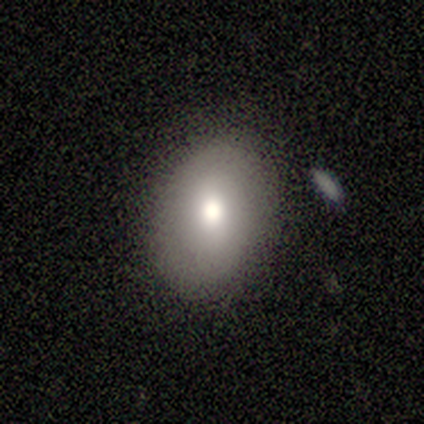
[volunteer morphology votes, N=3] Q: Smooth or featured?
A: smooth (100%)
Q: How rounded?
A: in between (100%)
Q: Merging?
A: none (100%)